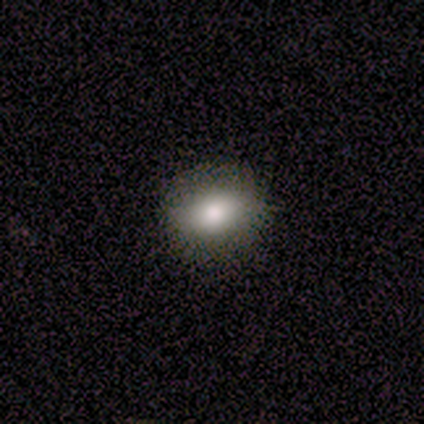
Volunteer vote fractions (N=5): This appears to be a smooth galaxy with no disk features (100%) that is round (60%). Merging: none (60%).